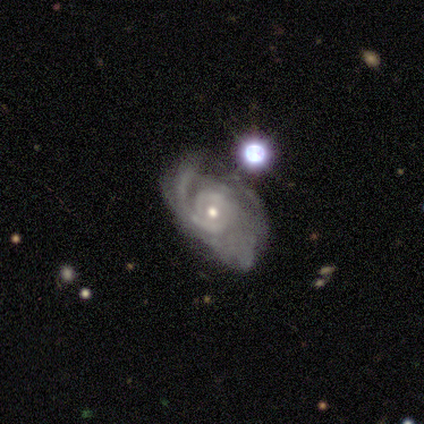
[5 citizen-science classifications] featured or disk 100%, smooth 0%, star or artifact 0%. Down the decision tree: edge-on disk — no (100%); bar — no (80%); spiral arms — yes (100%); spiral arm count — can't tell (60%); spiral winding — tight (80%); bulge size — small (60%); merging — major disturbance (60%).